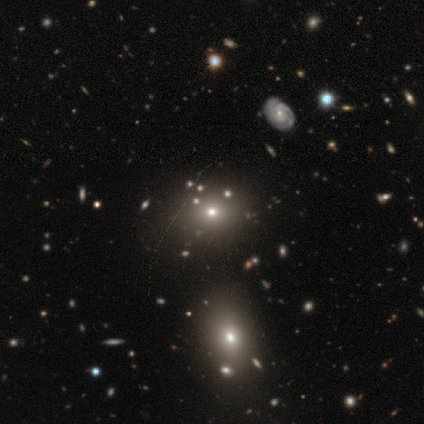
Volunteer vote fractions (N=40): smooth-or-featured: smooth: 57% | star or artifact: 28% | featured or disk: 15%
  how-rounded: round: 57% | in between: 43% | cigar-shaped: 0%
  merging: none: 76% | minor disturbance: 14% | merger: 10% | major disturbance: 0%